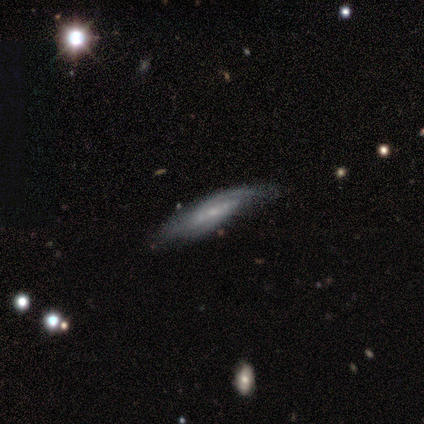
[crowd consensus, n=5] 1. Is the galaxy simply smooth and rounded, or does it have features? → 80% featured or disk, 20% smooth, 0% star or artifact.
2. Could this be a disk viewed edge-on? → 50% yes (tied), 50% no (tied).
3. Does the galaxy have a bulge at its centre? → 50% none (tied), 50% rounded (tied), 0% boxy.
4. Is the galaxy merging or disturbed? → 80% none, 20% major disturbance, 0% minor disturbance, 0% merger.